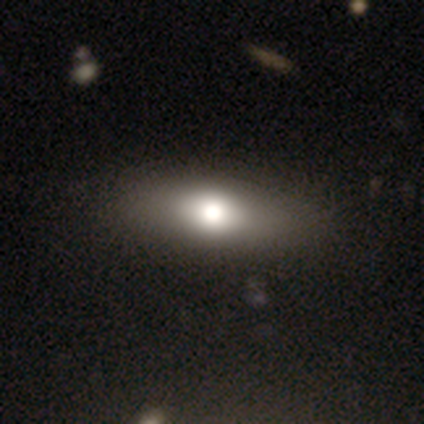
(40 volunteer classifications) Overall: smooth (65%; featured or disk 28%). How rounded: in between (65%; cigar-shaped 31%). Merging: none (68%).